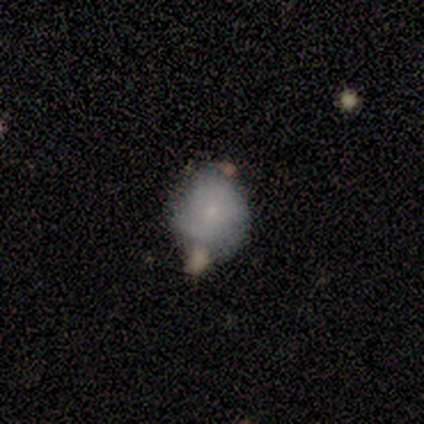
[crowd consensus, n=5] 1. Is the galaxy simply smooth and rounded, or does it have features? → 60% smooth, 40% featured or disk, 0% star or artifact.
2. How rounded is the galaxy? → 67% round, 33% in between, 0% cigar-shaped.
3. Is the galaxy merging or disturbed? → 60% none, 20% minor disturbance, 20% merger, 0% major disturbance.